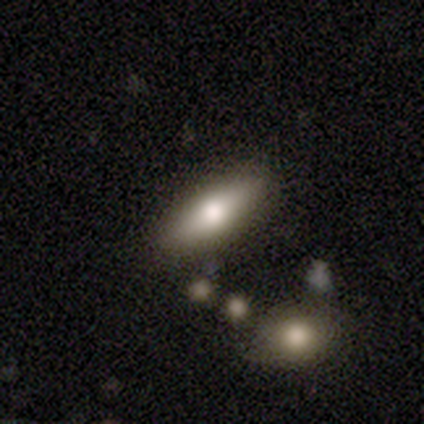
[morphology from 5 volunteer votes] This is clearly a smooth galaxy (100%). How rounded: likely cigar-shaped (60%). Merging: clearly none (80%).